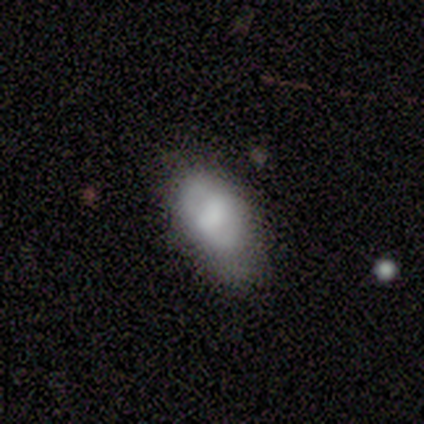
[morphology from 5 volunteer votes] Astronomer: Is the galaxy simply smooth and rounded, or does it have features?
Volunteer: smooth — 80%.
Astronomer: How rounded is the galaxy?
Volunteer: in between — 75%.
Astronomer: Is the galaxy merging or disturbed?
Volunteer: none — 60%.